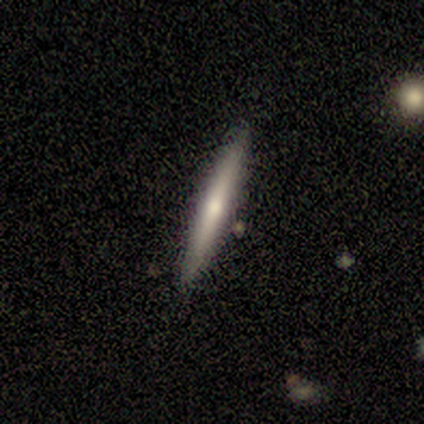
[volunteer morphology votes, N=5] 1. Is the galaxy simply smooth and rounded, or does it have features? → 60% smooth, 40% featured or disk, 0% star or artifact.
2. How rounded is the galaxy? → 100% cigar-shaped, 0% round, 0% in between.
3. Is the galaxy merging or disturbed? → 100% none, 0% minor disturbance, 0% major disturbance, 0% merger.